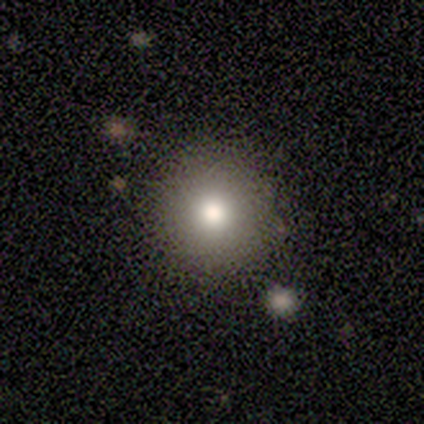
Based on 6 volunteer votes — Consensus on every question: smooth or featured — smooth (100%); how rounded — round (100%); merging — none (100%).